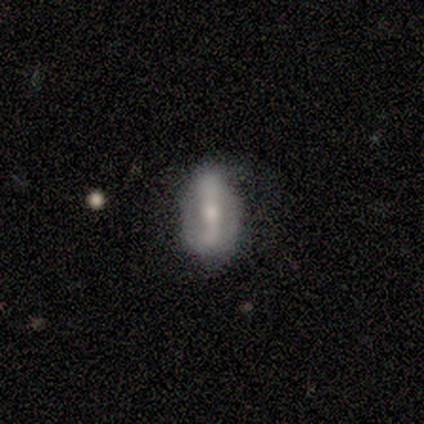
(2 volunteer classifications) smooth-or-featured: smooth: 50% (tied) | star or artifact: 50% (tied) | featured or disk: 0%
  how-rounded: in between: 100% | round: 0% | cigar-shaped: 0%
  merging: merger: 100% | none: 0% | minor disturbance: 0% | major disturbance: 0%